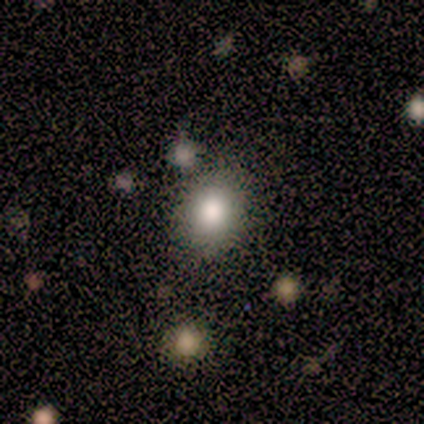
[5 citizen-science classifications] Smooth or featured: smooth — 80% (featured or disk — 20%)
How rounded: in between — 75% (round — 25%)
Merging: none — 80% (minor disturbance — 20%)